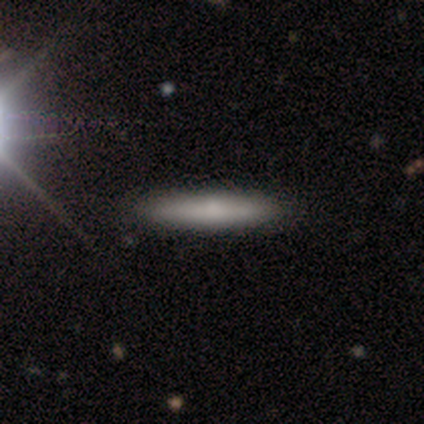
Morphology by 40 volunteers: Smooth or featured? smooth (70%)
How rounded? cigar-shaped (86%)
Merging? none (62%)